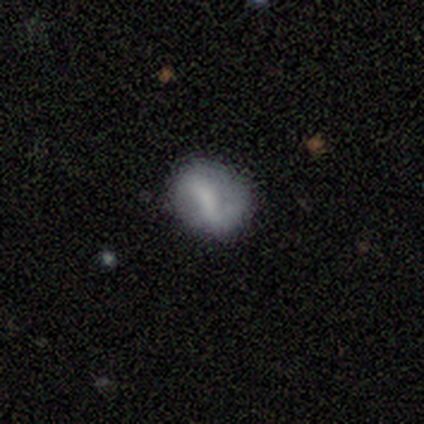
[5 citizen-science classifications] Morphology: type=featured or disk (80%); edge-on=no (100%); bar=strong (75%); spiral arms=yes (50%, tied with no); winding=loose (100%); arm count=2 (100%); bulge=none (100%); merging=none (100%).